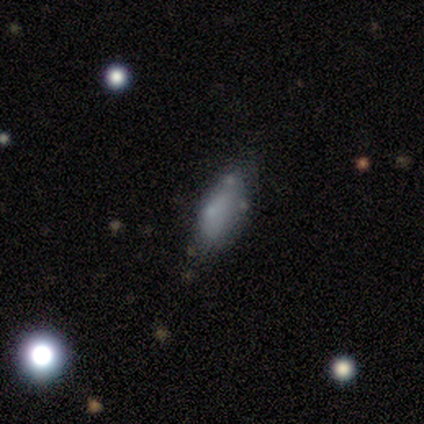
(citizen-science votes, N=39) Smooth or featured: smooth — 59% (featured or disk — 31%)
How rounded: in between — 65% (cigar-shaped — 26%)
Merging: none — 51% (minor disturbance — 37%)